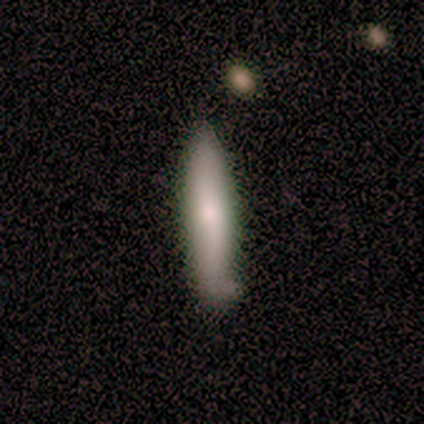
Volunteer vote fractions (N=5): smooth 100%, featured or disk 0%, star or artifact 0%. Down the decision tree: how rounded — cigar-shaped (80%); merging — none (60%).